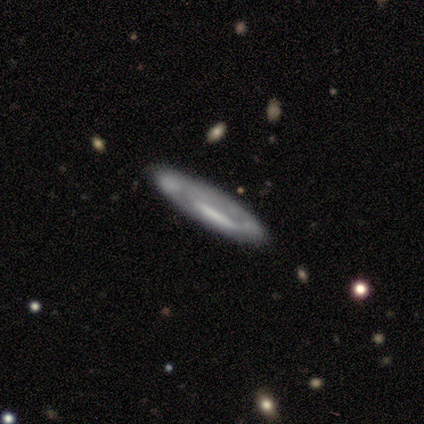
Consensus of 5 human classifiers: Smooth or featured: featured or disk — 80% (smooth — 20%)
Edge-on disk: no — 75% (yes — 25%)
Bar: no — 67% (strong — 33%)
Spiral arms: no — 67% (yes — 33%)
Bulge size: none — 67% (moderate — 33%)
Merging: none — 80% (minor disturbance — 20%)